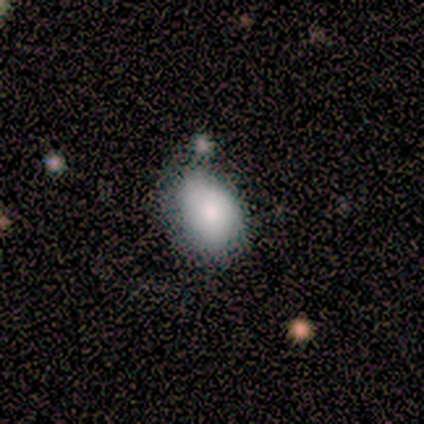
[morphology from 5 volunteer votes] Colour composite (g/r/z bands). It shows a smooth galaxy with no disk features (80%) that is in between round and cigar-shaped (75%). Merging: none (75%).